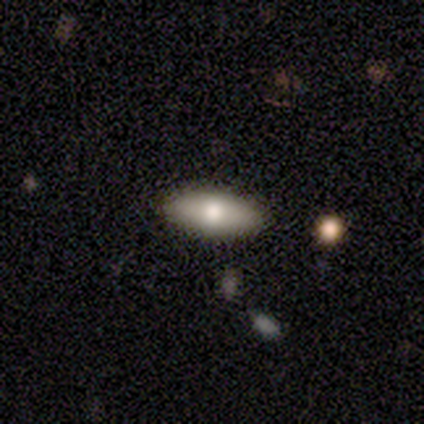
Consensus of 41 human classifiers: A smooth galaxy with no disk features (83%) that is in between round and cigar-shaped (82%).

Vote fractions:
- Smooth or featured? smooth: 83% / featured or disk: 17% / star or artifact: 0%
- How rounded? in between: 82% / cigar-shaped: 18% / round: 0%
- Merging? none: 93% / minor disturbance: 5% / merger: 2% / major disturbance: 0%